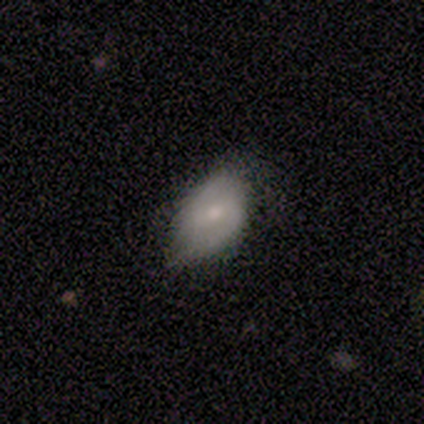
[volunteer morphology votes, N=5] Volunteers were most divided on "smooth or featured": smooth: 60%, featured or disk: 40%, star or artifact: 0%. More confident: how rounded — in between (100%); merging — minor disturbance (60%).